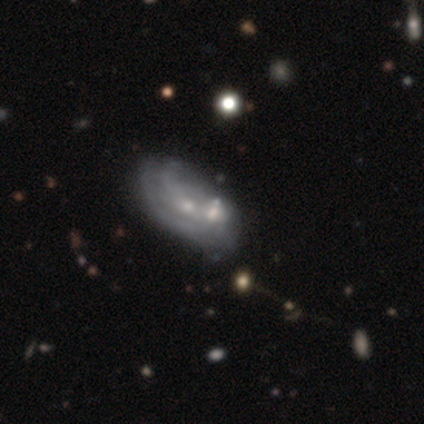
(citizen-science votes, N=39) Smooth or featured: featured or disk — 77% (smooth — 21%)
Edge-on disk: no — 100%
Bar: no — 73% (weak — 27%)
Spiral arms: yes — 50% (tied with no — 50%)
Spiral winding: medium — 47% (tight — 27%)
Spiral arm count: can't tell — 60% (2 — 20%)
Bulge size: small — 80% (moderate — 17%)
Merging: merger — 34% (none — 32%)